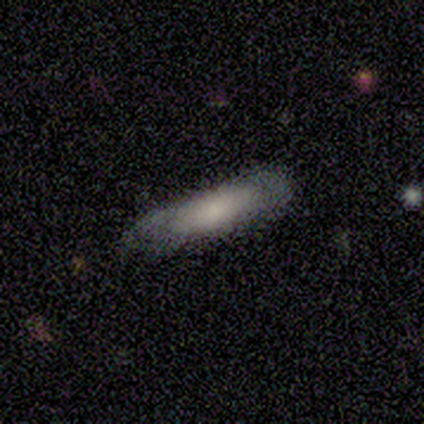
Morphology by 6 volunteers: Smooth or featured: smooth — 50% (tied with featured or disk — 50%)
How rounded: cigar-shaped — 67% (in between — 33%)
Merging: none — 50% (minor disturbance — 33%)